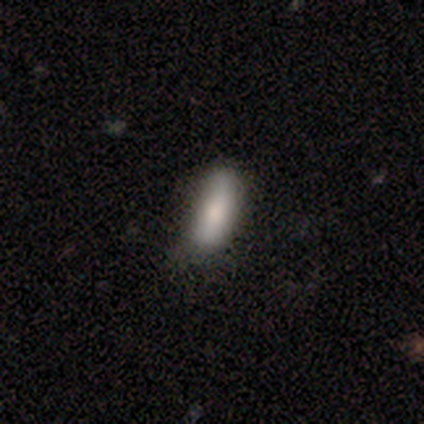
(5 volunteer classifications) Smooth or featured?
  - smooth: 100% *
  - featured or disk: 0%
  - star or artifact: 0%
How rounded?
  - cigar-shaped: 60% *
  - in between: 40%
  - round: 0%
Merging?
  - none: 80% *
  - minor disturbance: 20%
  - major disturbance: 0%
  - merger: 0%